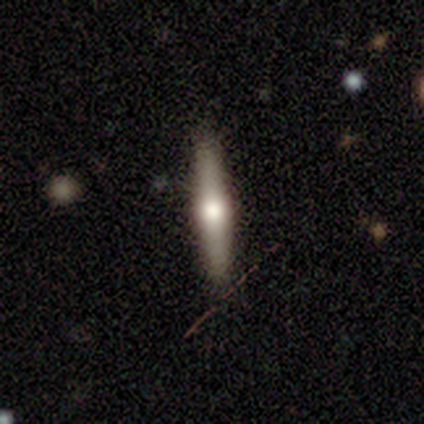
Smooth or featured?
  - featured or disk: 54% *
  - smooth: 46%
  - star or artifact: 0%
Edge-on disk?
  - yes: 100% *
  - no: 0%
Edge-on bulge?
  - rounded: 90% *
  - boxy: 5%
  - none: 5%
Merging?
  - none: 87% *
  - minor disturbance: 8%
  - merger: 5%
  - major disturbance: 0%